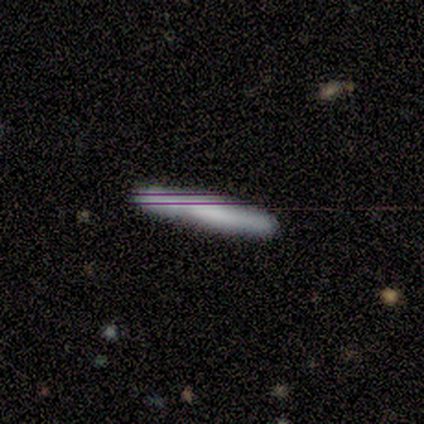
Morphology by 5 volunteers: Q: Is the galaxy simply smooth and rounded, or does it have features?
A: smooth — 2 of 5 (40%, tied with featured or disk).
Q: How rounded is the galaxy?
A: cigar-shaped — 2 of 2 (100%).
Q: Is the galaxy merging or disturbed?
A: none — 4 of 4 (100%).